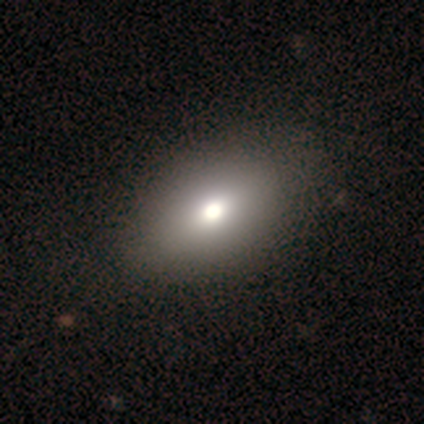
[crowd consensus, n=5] smooth-or-featured: smooth: 80% | featured or disk: 20% | star or artifact: 0%
  how-rounded: in between: 100% | round: 0% | cigar-shaped: 0%
  merging: none: 60% | minor disturbance: 20% | major disturbance: 20% | merger: 0%